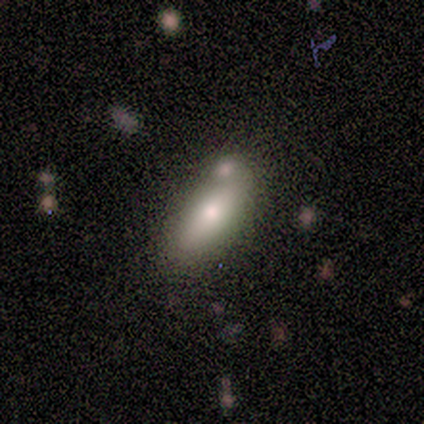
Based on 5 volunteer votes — smooth-or-featured: smooth: 80% | star or artifact: 20% | featured or disk: 0%
  how-rounded: in between: 50% (tied) | cigar-shaped: 50% (tied) | round: 0%
  merging: minor disturbance: 50% | none: 25% | major disturbance: 25% | merger: 0%